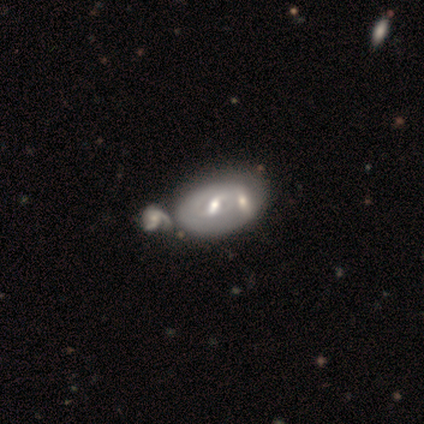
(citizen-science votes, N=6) A smooth galaxy with no disk features (50%, tied with featured or disk) that is in between round and cigar-shaped (100%). Merging: merger (83%).